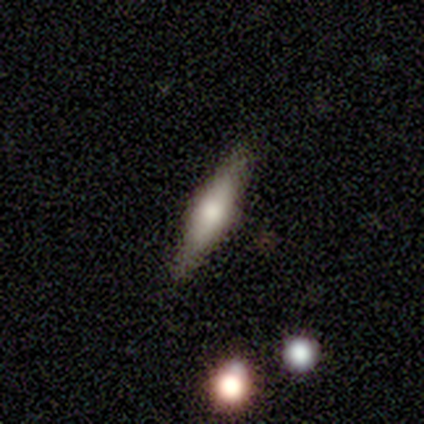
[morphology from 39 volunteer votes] Overall: featured or disk (51%; smooth 41%). Edge-on disk: yes (95%). Edge-on bulge: rounded (74%). Merging: none (94%).